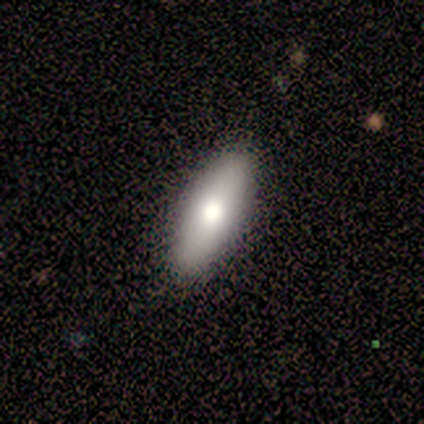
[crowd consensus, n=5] Smooth or featured? smooth (60%)
How rounded? in between (100%)
Merging? none (80%)